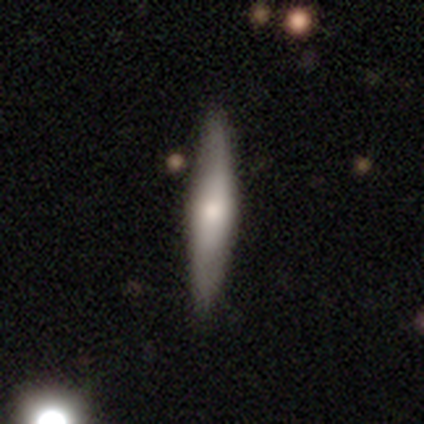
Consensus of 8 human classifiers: smooth_or_featured: smooth (p=0.50) [tied with: featured or disk p=0.50]
how_rounded: cigar-shaped (p=0.75) [alt: in between p=0.25]
merging: none (p=0.75) [alt: minor disturbance p=0.25]